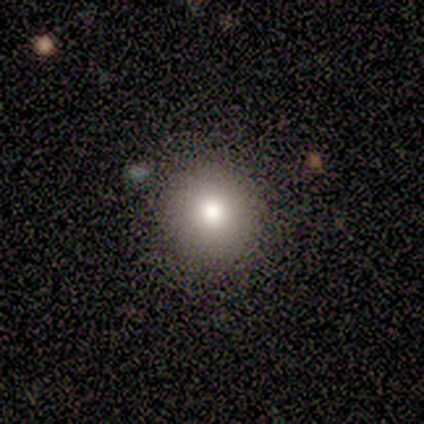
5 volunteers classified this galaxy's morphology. Smooth or featured? 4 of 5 (80%) said smooth. How rounded? 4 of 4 (100%) said round. Merging? 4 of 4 (100%) said none.